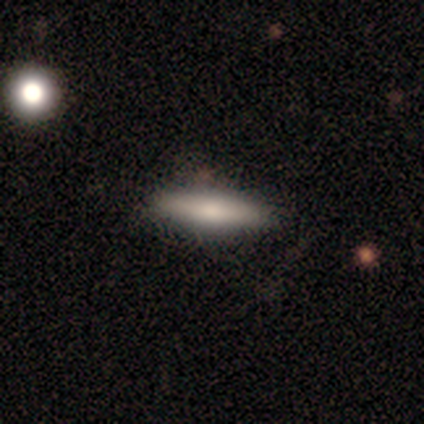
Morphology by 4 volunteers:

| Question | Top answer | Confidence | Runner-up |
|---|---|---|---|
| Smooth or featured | smooth | 100% | — |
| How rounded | cigar-shaped | 100% | — |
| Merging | none | 100% | — |